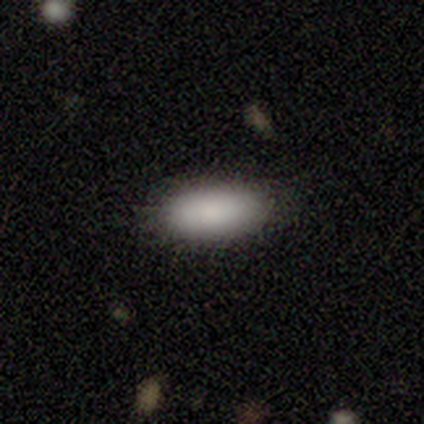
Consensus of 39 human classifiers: Volunteers were most divided on "smooth or featured": smooth: 85%, star or artifact: 10%, featured or disk: 5%. More confident: merging — none (91%); how rounded — in between (88%).